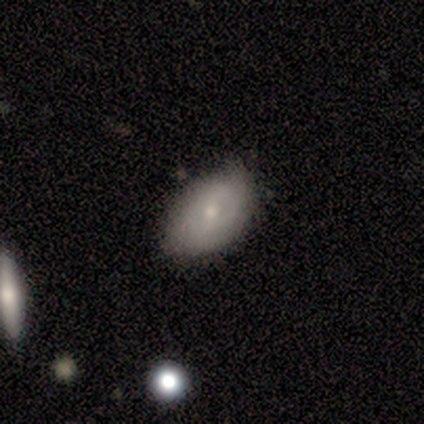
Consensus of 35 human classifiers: smooth_or_featured: smooth (p=0.49) [alt: featured or disk p=0.46]
how_rounded: in between (p=0.88) [alt: round p=0.06]
merging: none (p=0.61) [alt: minor disturbance p=0.39]